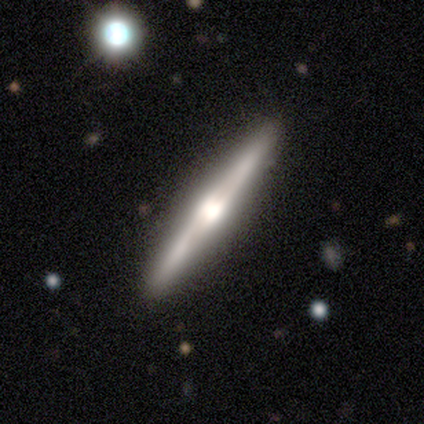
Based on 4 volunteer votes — Q: Smooth or featured?
A: featured or disk (100%)
Q: Edge-on disk?
A: yes (75%); runner-up: no (25%)
Q: Edge-on bulge?
A: rounded (67%); runner-up: boxy (33%)
Q: Merging?
A: none (100%)